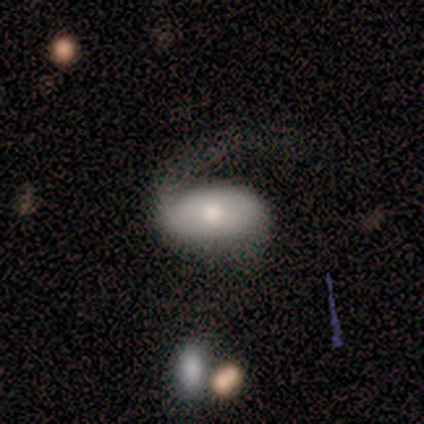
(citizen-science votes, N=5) smooth-or-featured: smooth: 60% | featured or disk: 40% | star or artifact: 0%
  how-rounded: in between: 100% | round: 0% | cigar-shaped: 0%
  merging: none: 40% (tied) | minor disturbance: 40% (tied) | major disturbance: 20% | merger: 0%